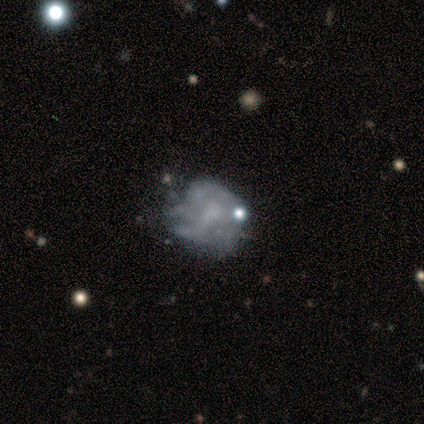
This appears to be a featured or disk galaxy (58%) with no bar (91%), no spiral arms (73%) and no central bulge (68%). Merging: minor disturbance (41%).